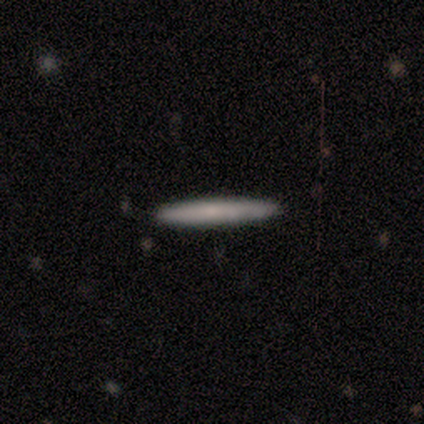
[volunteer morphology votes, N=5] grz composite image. It shows a smooth galaxy with no disk features (80%) that is cigar-shaped (100%). Merging: none (100%).